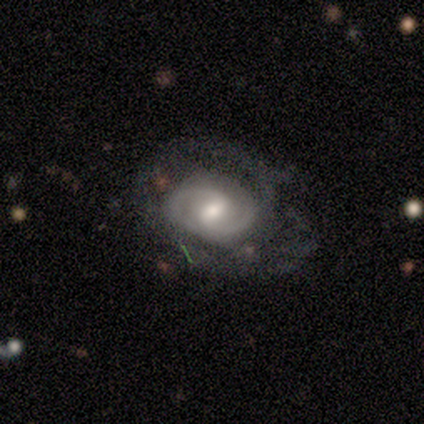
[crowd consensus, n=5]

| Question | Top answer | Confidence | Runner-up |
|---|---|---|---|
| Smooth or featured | featured or disk | 100% | — |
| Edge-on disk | no | 100% | — |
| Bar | strong | 60% | weak (40%) |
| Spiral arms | yes | 100% | — |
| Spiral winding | tight | 80% | medium (20%) |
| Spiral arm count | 2 | 60% | can't tell (40%) |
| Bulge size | small | 60% | moderate (40%) |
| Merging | none | 40% | tied: minor disturbance (40%) |